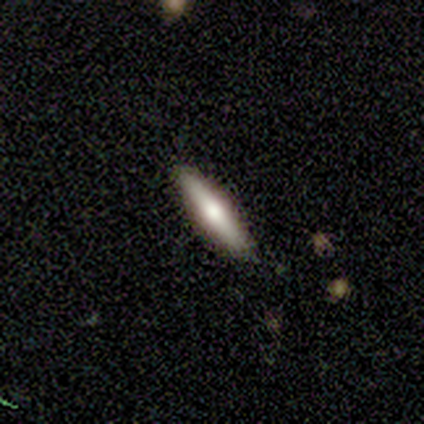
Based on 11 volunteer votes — Volunteers were most divided on "smooth or featured": smooth: 73%, featured or disk: 27%, star or artifact: 0%. More confident: how rounded — cigar-shaped (100%); merging — none (100%).